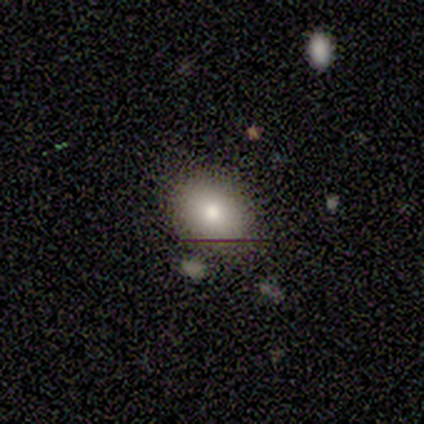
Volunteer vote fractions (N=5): Smooth or featured? smooth (80%)
How rounded? in between (75%)
Merging? none (100%)